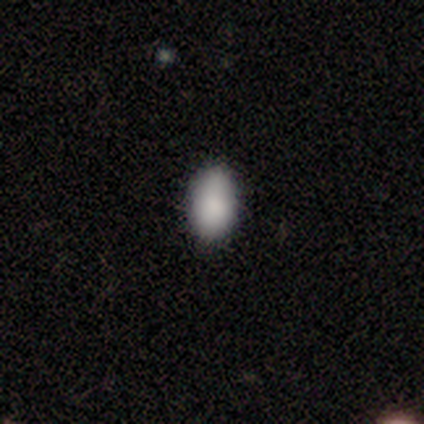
This is clearly a smooth galaxy (80%). How rounded: clearly in between (100%). Merging: likely none (60%).